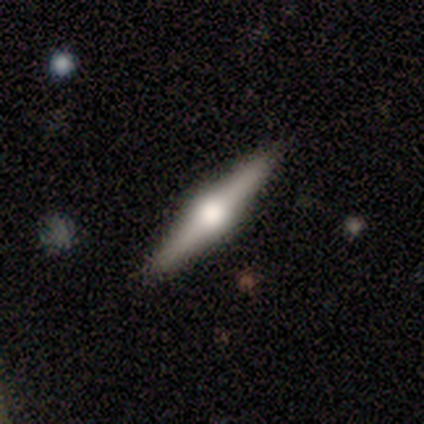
Smooth or featured? 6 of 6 (100%) said featured or disk. Edge-on disk? 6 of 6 (100%) said yes. Edge-on bulge? 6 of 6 (100%) said rounded. Merging? 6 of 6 (100%) said none.